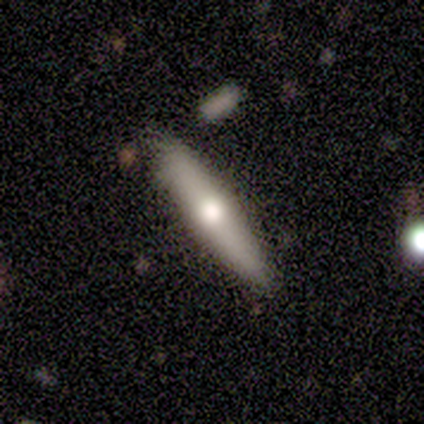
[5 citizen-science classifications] Smooth or featured: featured or disk — 60% (smooth — 40%)
Edge-on disk: yes — 100%
Edge-on bulge: rounded — 100%
Merging: none — 60% (minor disturbance — 20%)